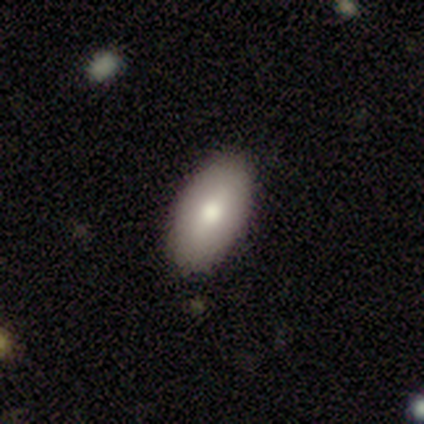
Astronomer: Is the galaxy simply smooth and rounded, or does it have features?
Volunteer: smooth — 67%.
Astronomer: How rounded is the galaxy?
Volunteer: in between — 100%.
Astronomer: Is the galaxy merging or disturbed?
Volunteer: none — 83%.